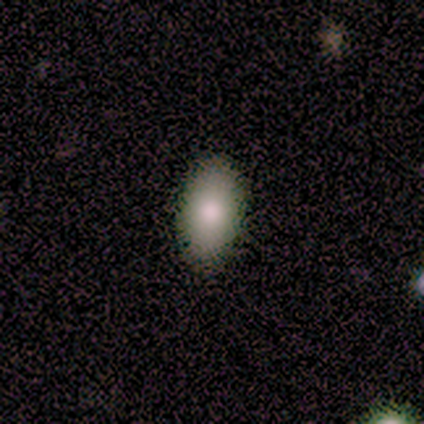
smooth-or-featured: smooth: 89% | featured or disk: 11% | star or artifact: 0%
  how-rounded: in between: 100% | round: 0% | cigar-shaped: 0%
  merging: none: 89% | major disturbance: 11% | minor disturbance: 0% | merger: 0%